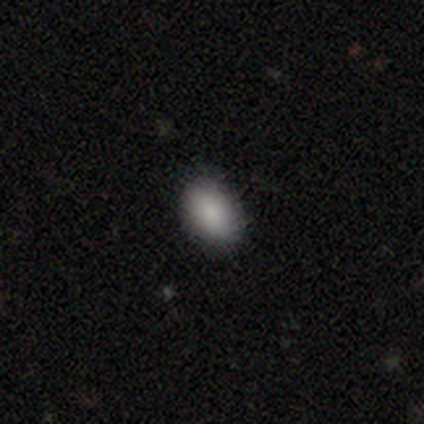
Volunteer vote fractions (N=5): Morphology: type=smooth (80%); roundness=in between (100%); merging=none (100%).